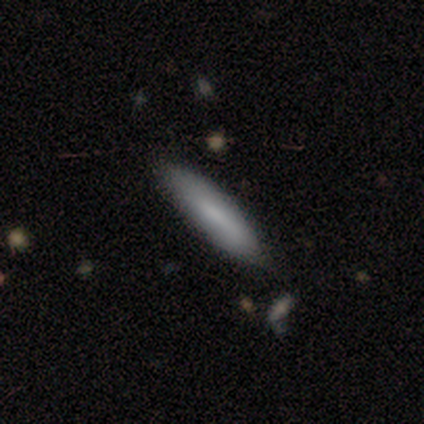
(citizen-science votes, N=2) Smooth or featured? smooth (100%)
How rounded? cigar-shaped (100%)
Merging? minor disturbance (100%)